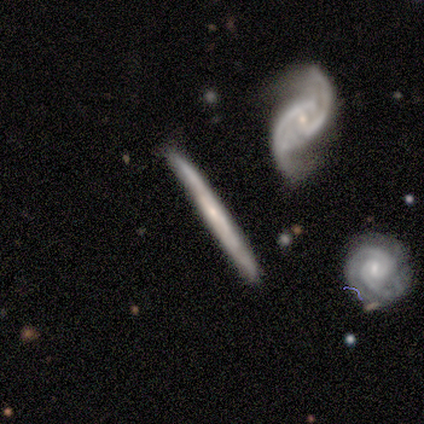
This appears to be a featured or disk galaxy (100%) viewed edge-on (71%) with no central bulge (100%). Merging: none (71%).